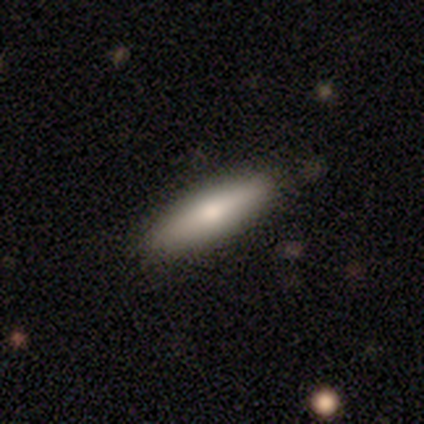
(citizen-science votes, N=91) A smooth galaxy with no disk features (71%) that is cigar-shaped (77%).

Vote fractions:
- Smooth or featured? smooth: 71% / featured or disk: 22% / star or artifact: 7%
- How rounded? cigar-shaped: 77% / in between: 23% / round: 0%
- Merging? none: 85% / minor disturbance: 13% / major disturbance: 1% / merger: 1%